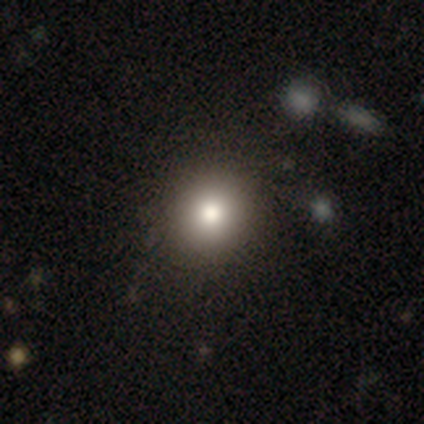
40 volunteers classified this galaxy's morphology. A smooth galaxy with no disk features (92%) that is round (92%). Merging: none (68%).